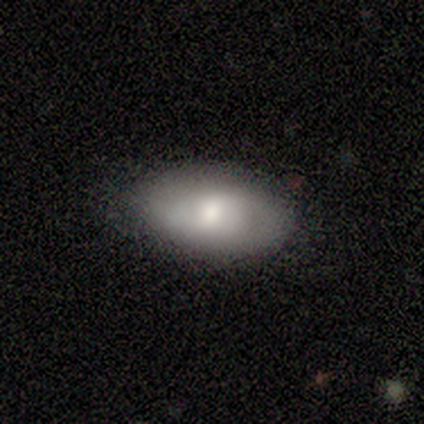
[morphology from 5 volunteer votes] Smooth or featured: smooth — 60% (featured or disk — 40%)
How rounded: in between — 67% (round — 33%)
Merging: none — 60% (minor disturbance — 40%)